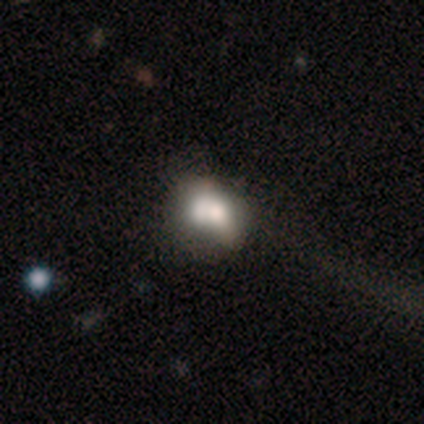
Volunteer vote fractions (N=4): smooth-or-featured: smooth: 75% | featured or disk: 25% | star or artifact: 0%
  how-rounded: in between: 67% | round: 33% | cigar-shaped: 0%
  merging: major disturbance: 75% | none: 25% | minor disturbance: 0% | merger: 0%